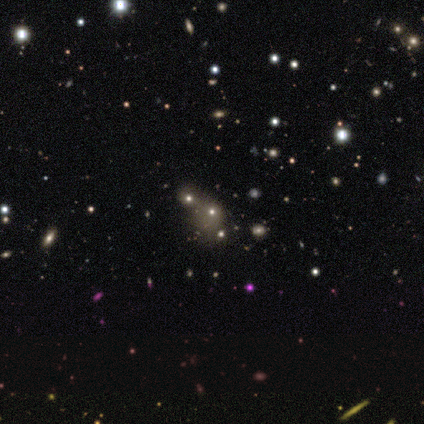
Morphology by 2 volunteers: A star or artifact, not a galaxy (100%).